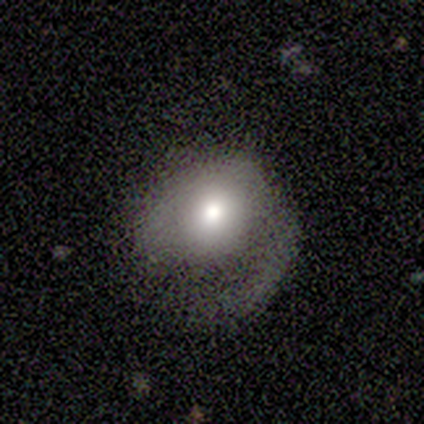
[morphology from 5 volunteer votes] Q: Smooth or featured?
A: featured or disk (60%); runner-up: smooth (20%)
Q: Edge-on disk?
A: no (100%)
Q: Bar?
A: no (100%)
Q: Spiral arms?
A: no (67%); runner-up: yes (33%)
Q: Bulge size?
A: moderate (67%); runner-up: small (33%)
Q: Merging?
A: none (50%); runner-up: minor disturbance (25%)